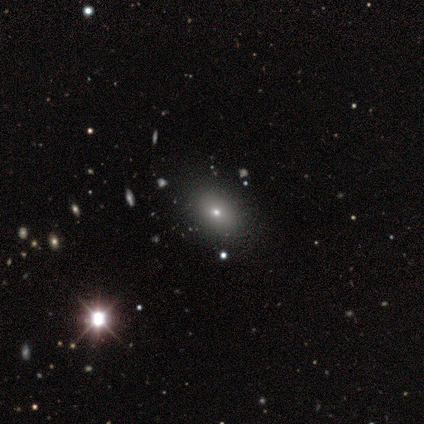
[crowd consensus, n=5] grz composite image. It shows a smooth galaxy with no disk features (80%) that is in between round and cigar-shaped (100%). Merging: none (100%).